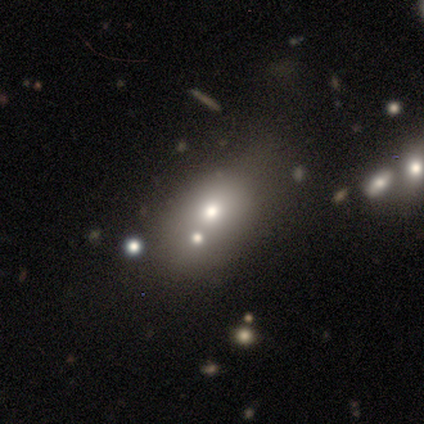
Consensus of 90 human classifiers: Smooth or featured: smooth — 58% (star or artifact — 23%)
How rounded: in between — 79% (round — 21%)
Merging: none — 46% (merger — 30%)